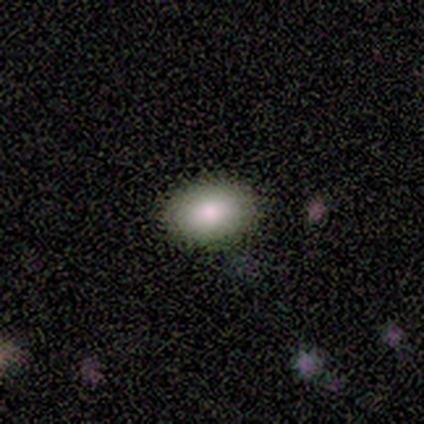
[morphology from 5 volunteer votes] smooth_or_featured: smooth (p=1.00)
how_rounded: in between (p=0.60) [alt: round p=0.40]
merging: none (p=1.00)